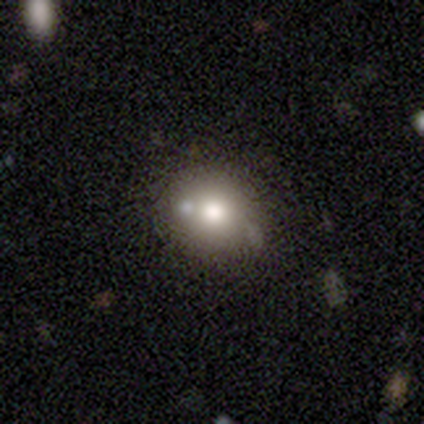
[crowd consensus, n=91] smooth 64%, featured or disk 25%, star or artifact 11%. Down the decision tree: how rounded — round (71%); merging — none (67%).